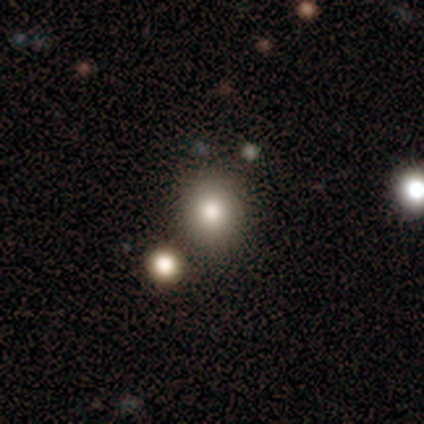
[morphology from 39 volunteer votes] Overall: smooth (79%). How rounded: round (81%). Merging: none (64%; merger 27%).